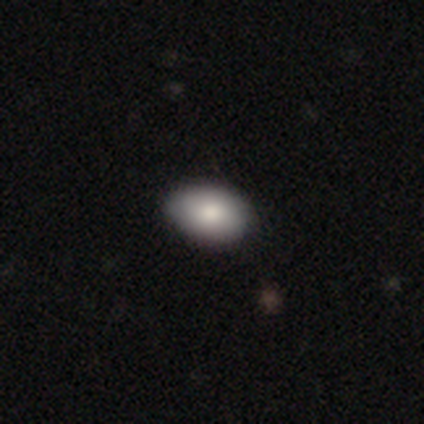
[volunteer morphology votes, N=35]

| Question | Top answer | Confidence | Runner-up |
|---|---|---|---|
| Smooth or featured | smooth | 80% | star or artifact (11%) |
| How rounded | in between | 86% | round (11%) |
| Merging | none | 90% | minor disturbance (10%) |